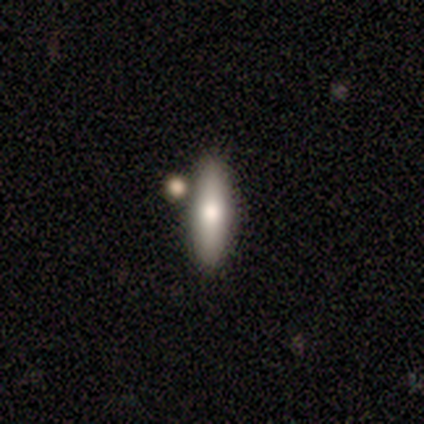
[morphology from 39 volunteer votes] smooth 79%, featured or disk 21%, star or artifact 0%. Down the decision tree: how rounded — cigar-shaped (52%); merging — none (87%).